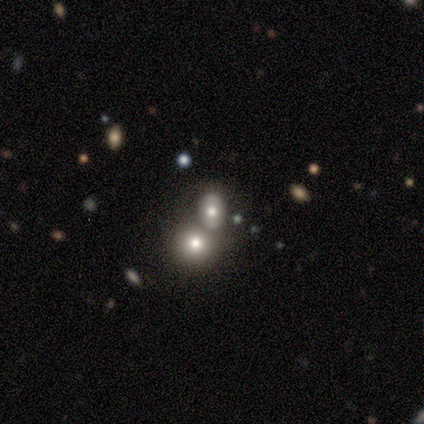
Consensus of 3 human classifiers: Q: Smooth or featured?
A: featured or disk (67%); runner-up: smooth (33%)
Q: Edge-on disk?
A: no (100%)
Q: Bar?
A: no (100%)
Q: Spiral arms?
A: no (100%)
Q: Bulge size?
A: large (50%); tied with: moderate (50%)
Q: Merging?
A: merger (100%)